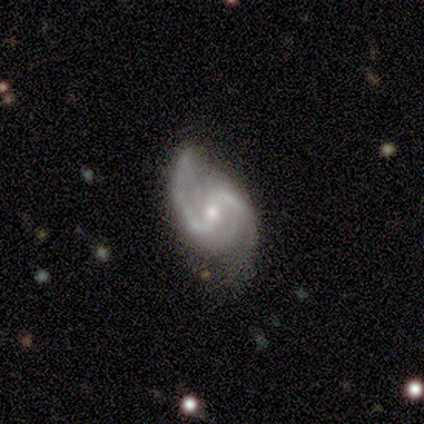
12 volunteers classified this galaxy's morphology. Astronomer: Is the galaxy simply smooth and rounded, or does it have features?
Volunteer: featured or disk — 92%.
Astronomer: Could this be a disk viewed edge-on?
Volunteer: no — 100%.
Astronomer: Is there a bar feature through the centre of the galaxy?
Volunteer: weak — 55% (runner-up: no, 36%).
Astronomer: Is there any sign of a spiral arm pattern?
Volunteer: yes — 100%.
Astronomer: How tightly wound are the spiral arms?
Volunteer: medium — 73%.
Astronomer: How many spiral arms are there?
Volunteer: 2 — 100%.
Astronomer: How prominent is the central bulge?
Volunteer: small — 55% (runner-up: moderate, 45%).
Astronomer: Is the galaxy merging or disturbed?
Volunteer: none — 91%.